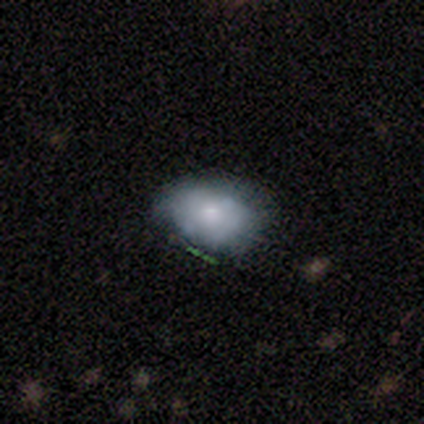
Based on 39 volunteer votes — Overall: smooth (69%). How rounded: in between (74%). Merging: none (56%; minor disturbance 32%).